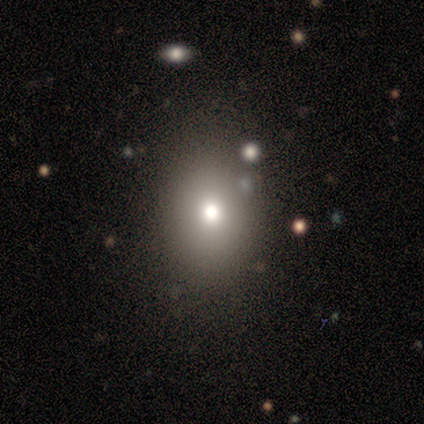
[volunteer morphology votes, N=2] Smooth or featured?
  - smooth: 100% *
  - featured or disk: 0%
  - star or artifact: 0%
How rounded?
  - in between: 100% *
  - round: 0%
  - cigar-shaped: 0%
Merging?
  - none: 100% *
  - minor disturbance: 0%
  - major disturbance: 0%
  - merger: 0%